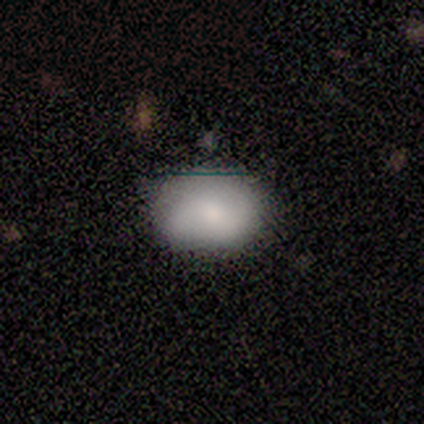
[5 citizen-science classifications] Smooth or featured: smooth — 80% (featured or disk — 20%)
How rounded: round — 50% (tied with in between — 50%)
Merging: none — 60% (minor disturbance — 40%)